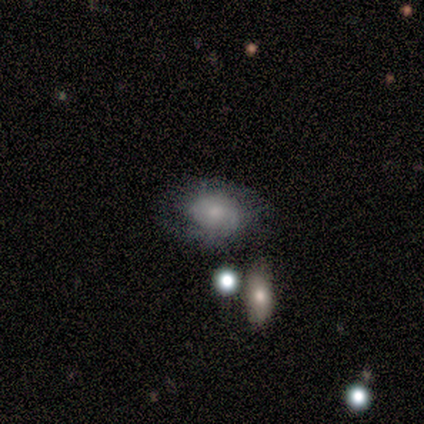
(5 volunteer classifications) Q: Smooth or featured?
A: smooth (60%); runner-up: featured or disk (40%)
Q: How rounded?
A: in between (100%)
Q: Merging?
A: none (40%); tied with: minor disturbance (40%)